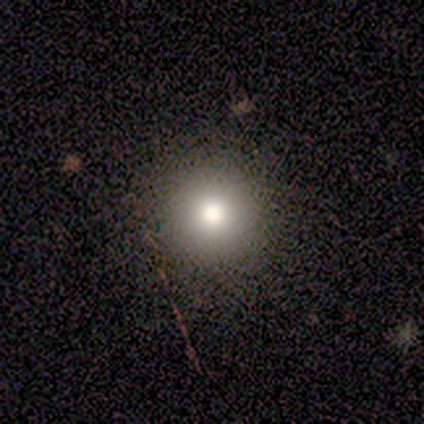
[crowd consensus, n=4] Smooth or featured? 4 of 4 (100%) said smooth. How rounded? 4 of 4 (100%) said round. Merging? 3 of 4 (75%) said none.